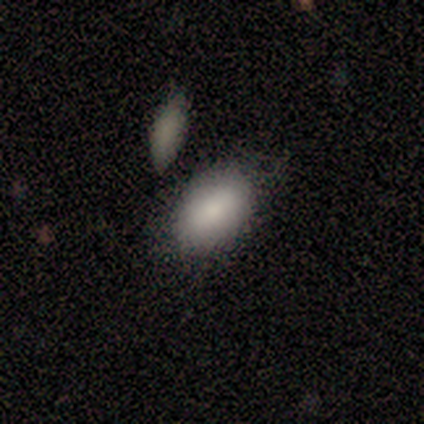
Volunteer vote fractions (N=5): Q: Smooth or featured?
A: smooth (100%)
Q: How rounded?
A: in between (100%)
Q: Merging?
A: none (80%); runner-up: minor disturbance (20%)